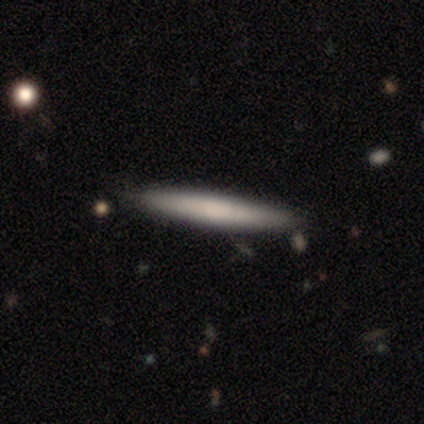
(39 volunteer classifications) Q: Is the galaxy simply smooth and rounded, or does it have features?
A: smooth — 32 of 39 (82%).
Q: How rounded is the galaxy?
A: cigar-shaped — 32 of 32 (100%).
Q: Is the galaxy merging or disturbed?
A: none — 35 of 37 (95%).